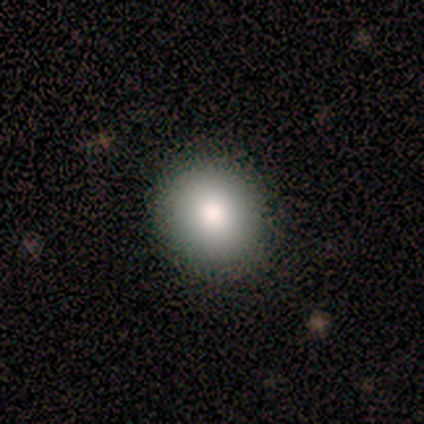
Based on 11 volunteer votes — This is clearly a smooth galaxy (82%). How rounded: possibly round (56%). Merging: likely none (78%).